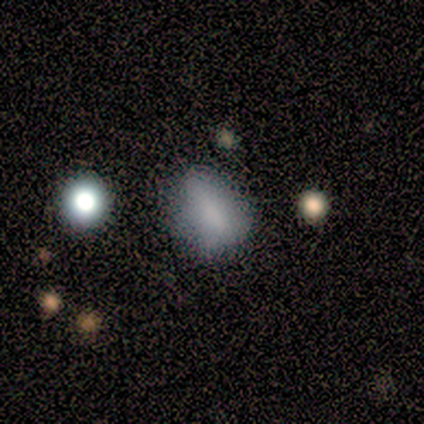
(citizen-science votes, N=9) smooth_or_featured: smooth (p=0.89) [alt: featured or disk p=0.11]
how_rounded: in between (p=0.62) [alt: round p=0.38]
merging: minor disturbance (p=0.56) [alt: none p=0.44]